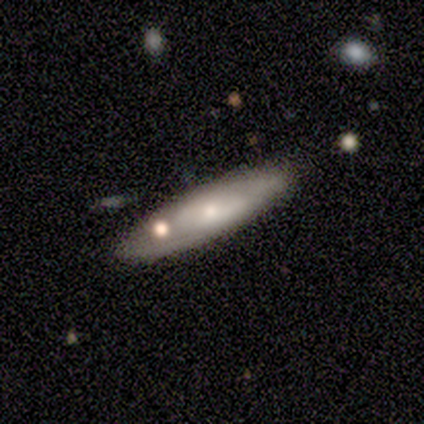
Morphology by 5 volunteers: smooth-or-featured: featured or disk: 60% | smooth: 40% | star or artifact: 0%
  disk-edge-on: no: 67% | yes: 33%
    bar: weak: 50% (tied) | no: 50% (tied) | strong: 0%
    has-spiral-arms: yes: 100% | no: 0%
      spiral-winding: medium: 100% | tight: 0% | loose: 0%
      spiral-arm-count: 2: 100% | 1: 0% | 3: 0% | 4: 0% | more than 4: 0% | can't tell: 0%
    bulge-size: small: 100% | dominant: 0% | large: 0% | moderate: 0% | none: 0%
  merging: none: 60% | merger: 40% | minor disturbance: 0% | major disturbance: 0%